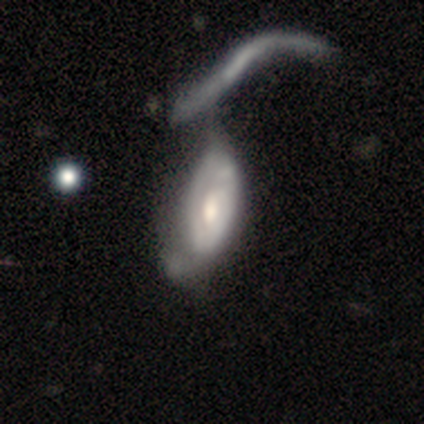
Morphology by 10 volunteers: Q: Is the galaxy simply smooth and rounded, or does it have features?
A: featured or disk — 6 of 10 (60%).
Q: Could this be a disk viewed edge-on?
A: no — 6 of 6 (100%).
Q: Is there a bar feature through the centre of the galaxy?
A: no — 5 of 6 (83%).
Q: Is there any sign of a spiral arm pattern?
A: no — 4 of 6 (67%).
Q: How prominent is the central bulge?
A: moderate — 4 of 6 (67%).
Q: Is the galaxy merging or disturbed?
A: merger — 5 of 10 (50%).